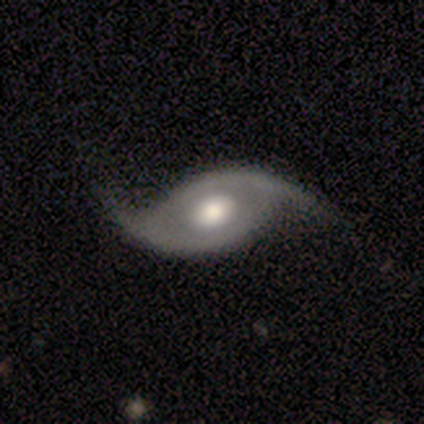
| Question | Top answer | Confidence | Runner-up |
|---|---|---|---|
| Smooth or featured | featured or disk | 100% | — |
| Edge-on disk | no | 80% | yes (20%) |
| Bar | no | 88% | weak (12%) |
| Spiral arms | yes | 100% | — |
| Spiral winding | loose | 88% | medium (12%) |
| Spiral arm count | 2 | 100% | — |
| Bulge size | moderate | 75% | large (25%) |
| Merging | none | 60% | minor disturbance (30%) |